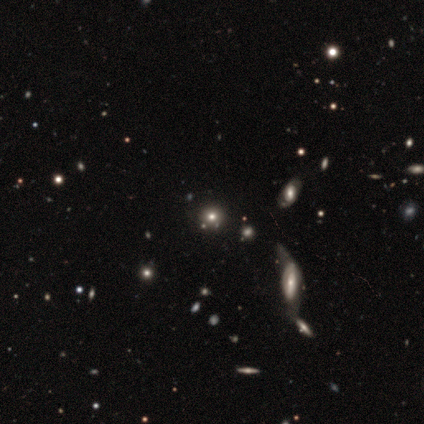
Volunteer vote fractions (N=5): Smooth or featured? star or artifact (60%)